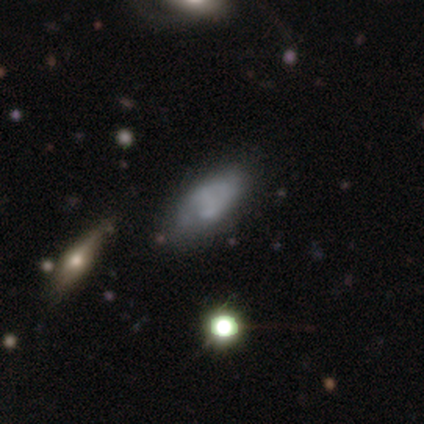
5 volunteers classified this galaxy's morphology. This is marginally a smooth galaxy (40%, tied with featured or disk). How rounded: clearly in between (100%). Merging: clearly none (100%).